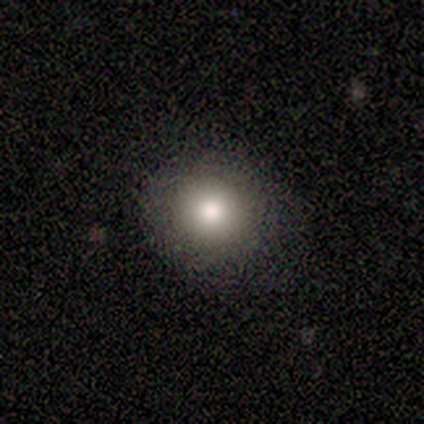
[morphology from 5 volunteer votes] Smooth or featured? smooth (40%, tied with featured or disk)
How rounded? round (100%)
Merging? none (100%)